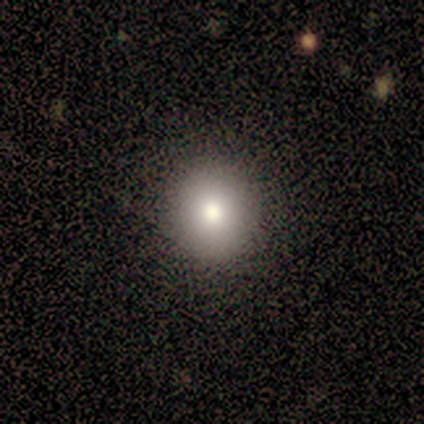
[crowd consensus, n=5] smooth-or-featured: smooth: 100% | featured or disk: 0% | star or artifact: 0%
  how-rounded: round: 100% | in between: 0% | cigar-shaped: 0%
  merging: none: 100% | minor disturbance: 0% | major disturbance: 0% | merger: 0%